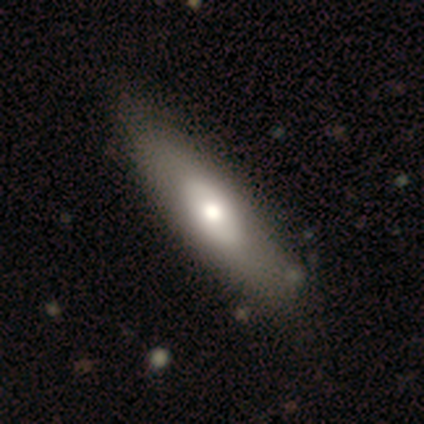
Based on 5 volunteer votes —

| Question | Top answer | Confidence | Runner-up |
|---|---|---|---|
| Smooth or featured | smooth | 60% | featured or disk (20%) |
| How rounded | cigar-shaped | 67% | in between (33%) |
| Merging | none | 75% | minor disturbance (25%) |